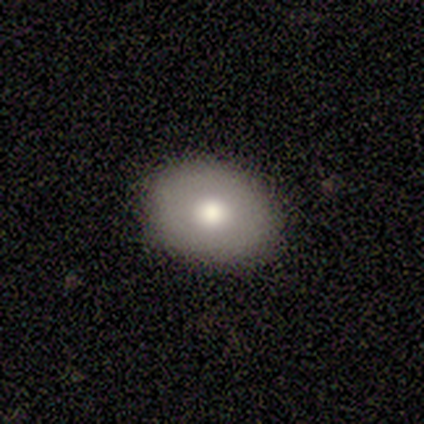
A smooth galaxy with no disk features (60%) that is in between round and cigar-shaped (67%). Merging: none (100%).